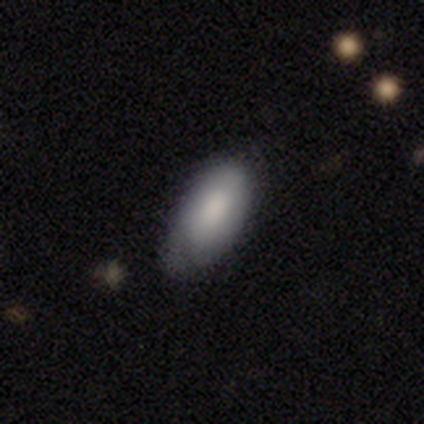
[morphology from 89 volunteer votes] Q: Smooth or featured?
A: smooth (80%); runner-up: featured or disk (13%)
Q: How rounded?
A: in between (93%); runner-up: cigar-shaped (6%)
Q: Merging?
A: none (58%); runner-up: minor disturbance (34%)